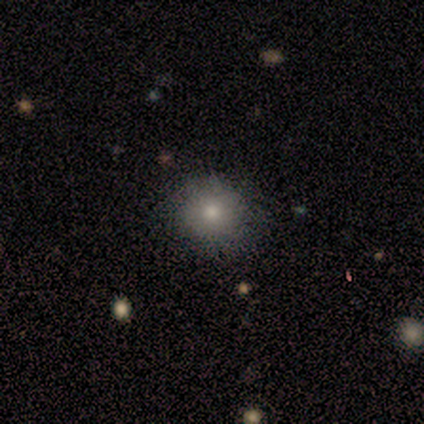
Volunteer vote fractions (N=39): Smooth or featured?
  - smooth: 72% *
  - featured or disk: 21%
  - star or artifact: 8%
How rounded?
  - round: 93% *
  - in between: 4%
  - cigar-shaped: 4%
Merging?
  - none: 81% *
  - minor disturbance: 14%
  - major disturbance: 6%
  - merger: 0%